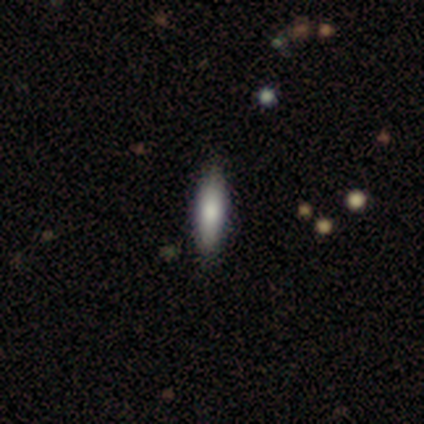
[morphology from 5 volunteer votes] type=smooth (60%); roundness=in between (67%); merging=none (100%).